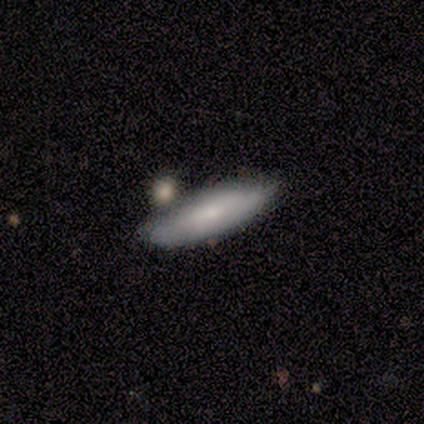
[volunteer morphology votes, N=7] Smooth or featured?
  - smooth: 100% *
  - featured or disk: 0%
  - star or artifact: 0%
How rounded?
  - cigar-shaped: 71% *
  - in between: 29%
  - round: 0%
Merging?
  - none: 71% *
  - minor disturbance: 29%
  - major disturbance: 0%
  - merger: 0%